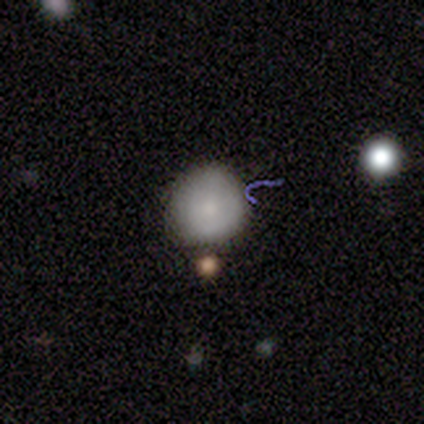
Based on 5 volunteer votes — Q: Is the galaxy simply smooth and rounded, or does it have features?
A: smooth — 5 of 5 (100%).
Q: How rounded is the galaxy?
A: round — 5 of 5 (100%).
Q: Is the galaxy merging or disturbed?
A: none — 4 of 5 (80%).